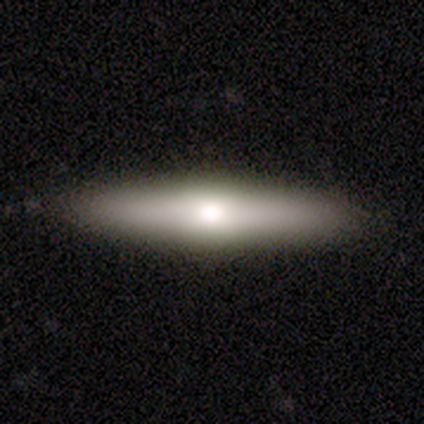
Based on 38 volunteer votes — featured or disk 55%, smooth 45%, star or artifact 0%. Down the decision tree: edge-on disk — yes (90%); edge-on bulge — rounded (79%); merging — none (92%).